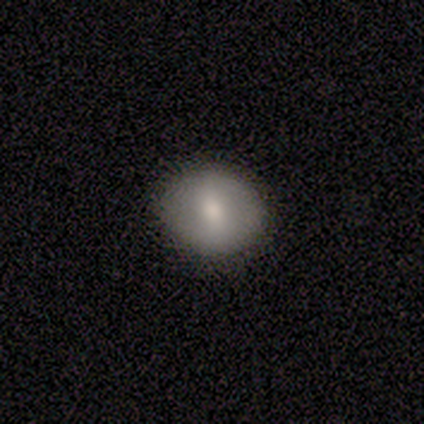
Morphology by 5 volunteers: Smooth or featured? smooth (60%)
How rounded? round (67%)
Merging? none (80%)